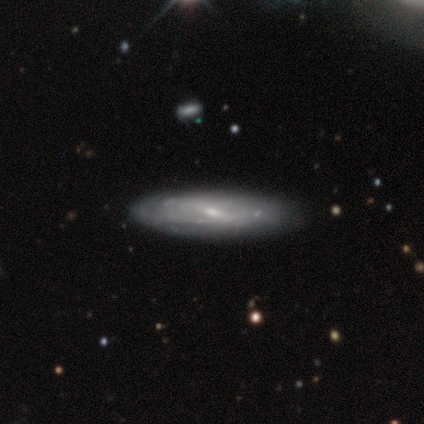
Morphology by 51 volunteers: Volunteers were most divided on "spiral winding" (2-way tie): tight: 44%, medium: 44%, loose: 12%. More confident: edge-on disk — no (85%); smooth or featured — featured or disk (78%); spiral arms — yes (74%); spiral arm count — can't tell (68%); merging — none (65%); bulge size — small (56%); bar — weak (56%).